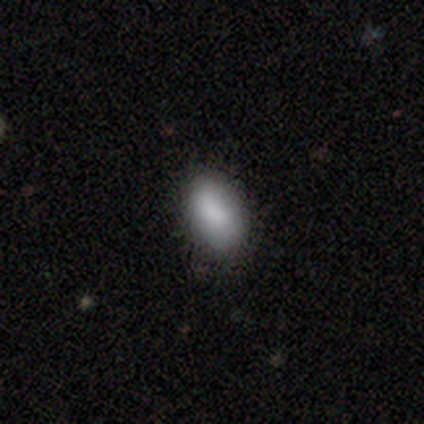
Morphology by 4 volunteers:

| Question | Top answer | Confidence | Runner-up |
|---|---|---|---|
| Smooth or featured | smooth | 100% | — |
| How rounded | in between | 100% | — |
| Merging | minor disturbance | 50% | none (25%) |